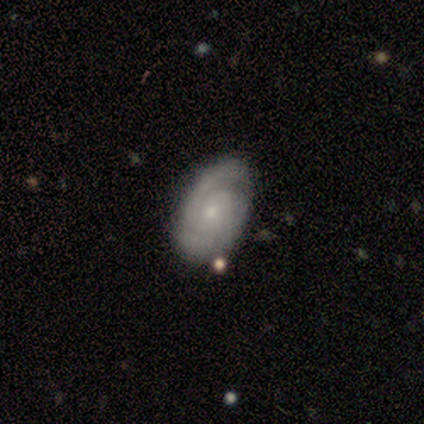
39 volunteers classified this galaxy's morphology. Smooth or featured? featured or disk (77%)
Edge-on disk? no (97%)
Bar? no (79%)
Spiral arms? yes (97%)
Spiral winding? tight (68%)
Spiral arm count? 2 (61%)
Bulge size? small (72%)
Merging? none (73%)